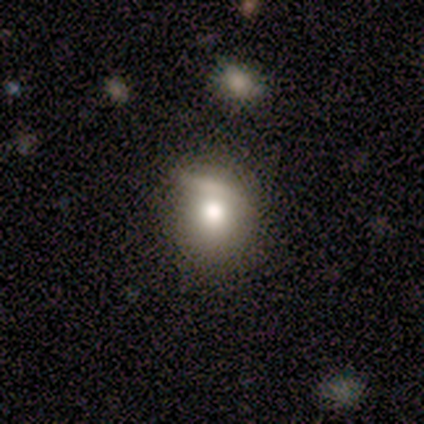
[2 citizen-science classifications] smooth 50% (tied), featured or disk 50% (tied), star or artifact 0%. Down the decision tree: how rounded — round (100%); merging — none (50%, tied with merger).